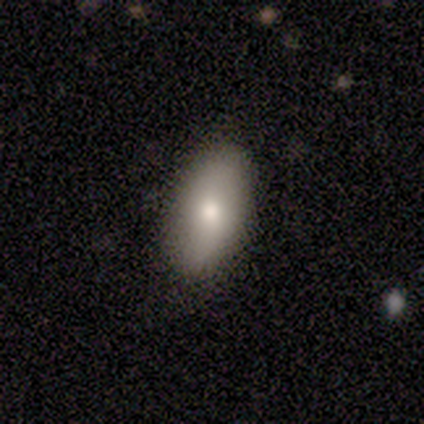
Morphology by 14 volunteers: Q: Smooth or featured?
A: smooth (71%); runner-up: featured or disk (29%)
Q: How rounded?
A: in between (100%)
Q: Merging?
A: none (64%); runner-up: minor disturbance (36%)